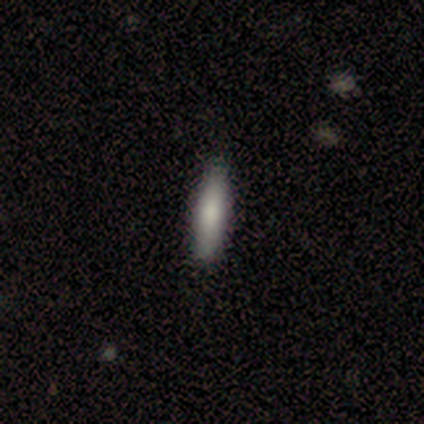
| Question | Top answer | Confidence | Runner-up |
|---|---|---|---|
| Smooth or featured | smooth | 60% | featured or disk (20%) |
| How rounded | cigar-shaped | 100% | — |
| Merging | none | 100% | — |